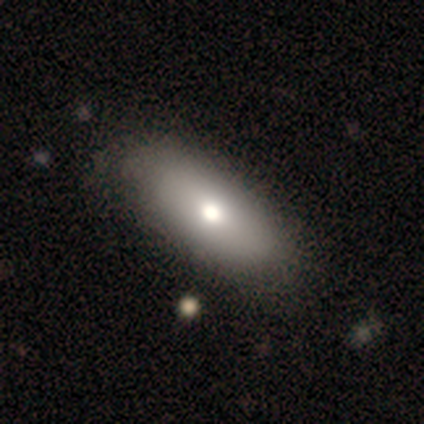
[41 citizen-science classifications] Volunteers were most divided on "smooth or featured": smooth: 78%, featured or disk: 20%, star or artifact: 2%. More confident: how rounded — in between (88%); merging — none (75%).